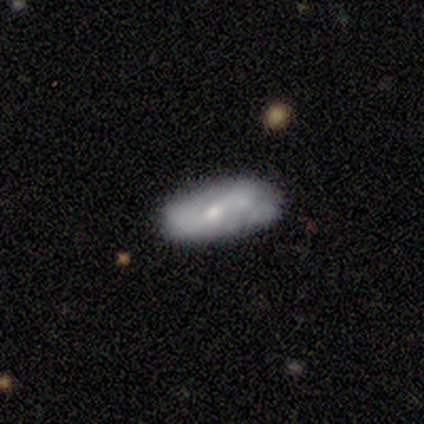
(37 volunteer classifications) This is likely a featured or disk galaxy (68%). It is clearly not viewed edge-on (84%). Bar: possibly no (48%). Spiral arm pattern: likely yes (71%). Spiral arm count: likely 2 (60%). Spiral winding: possibly loose (47%). Central bulge: possibly small (57%). Merging: likely none (67%).